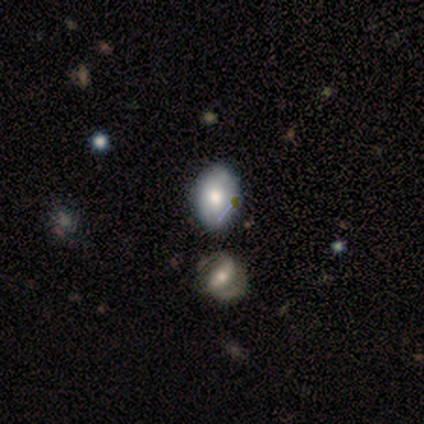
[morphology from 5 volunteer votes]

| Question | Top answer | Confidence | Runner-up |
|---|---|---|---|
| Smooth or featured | smooth | 60% | star or artifact (40%) |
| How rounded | in between | 100% | — |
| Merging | none | 67% | minor disturbance (33%) |